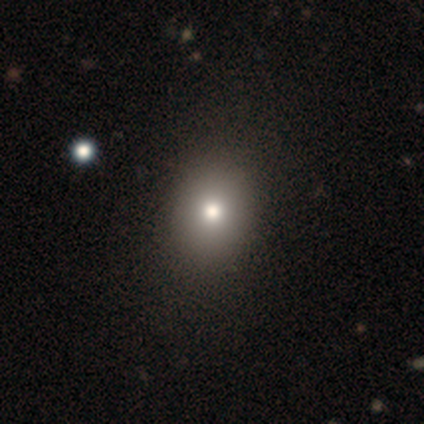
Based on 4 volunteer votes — This appears to be a smooth galaxy with no disk features (75%) that is in between round and cigar-shaped (67%). Merging: none (100%).